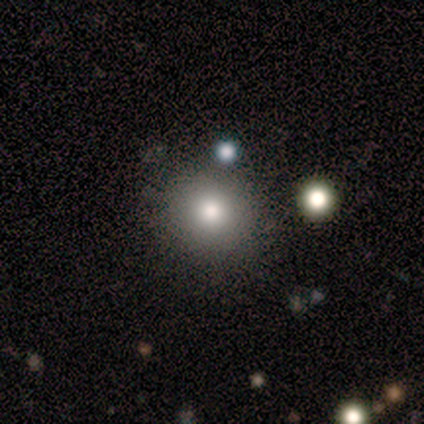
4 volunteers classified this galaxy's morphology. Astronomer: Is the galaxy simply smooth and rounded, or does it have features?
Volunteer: smooth — 100%.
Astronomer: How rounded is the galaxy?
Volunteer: round — 100%.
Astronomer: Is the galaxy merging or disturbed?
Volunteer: none — 100%.